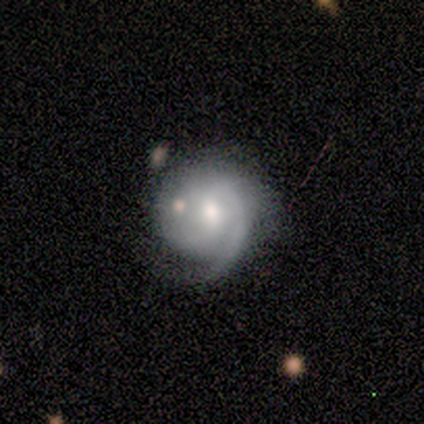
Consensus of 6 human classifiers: Smooth or featured?
  - featured or disk: 83% *
  - smooth: 17%
  - star or artifact: 0%
Edge-on disk?
  - no: 100% *
  - yes: 0%
Bar?
  - no: 80% *
  - weak: 20%
  - strong: 0%
Spiral arms?
  - yes: 100% *
  - no: 0%
Spiral winding?
  - medium: 60% *
  - tight: 20%
  - loose: 20%
Spiral arm count?
  - 2: 60% *
  - 1: 20%
  - can't tell: 20%
  - 3: 0%
  - 4: 0%
  - more than 4: 0%
Bulge size?
  - moderate: 60% *
  - small: 40%
  - dominant: 0%
  - large: 0%
  - none: 0%
Merging?
  - minor disturbance: 50% *
  - none: 33%
  - major disturbance: 17%
  - merger: 0%